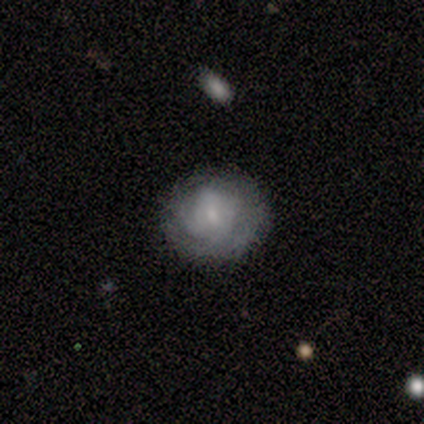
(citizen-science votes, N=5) Overall: smooth (60%; featured or disk 40%). How rounded: round (100%). Merging: none (60%; minor disturbance 40%).